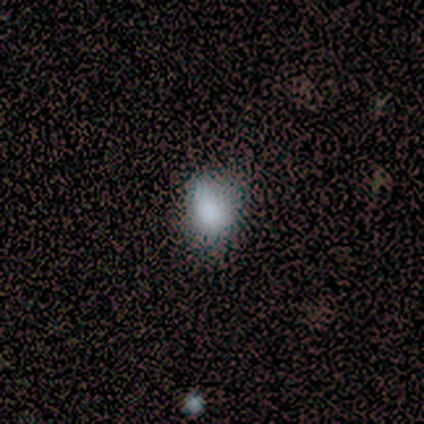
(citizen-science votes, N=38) Smooth or featured: smooth — 82% (featured or disk — 13%)
How rounded: in between — 52% (round — 48%)
Merging: none — 61% (minor disturbance — 14%)